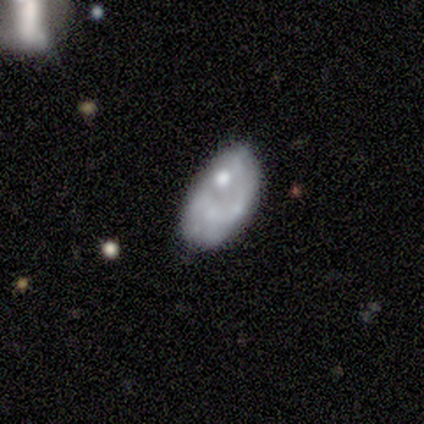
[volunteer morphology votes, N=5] A featured or disk galaxy (80%) with no bar (75%), no spiral arms (100%) and a moderate central bulge (50%).

Vote fractions:
- Smooth or featured? featured or disk: 80% / star or artifact: 20% / smooth: 0%
- Edge-on disk? no: 100% / yes: 0%
- Bar? no: 75% / weak: 25% / strong: 0%
- Spiral arms? no: 100% / yes: 0%
- Bulge size? moderate: 50% / small: 25% / none: 25% / dominant: 0% / large: 0%
- Merging? major disturbance: 50% / none: 25% / minor disturbance: 25% / merger: 0%